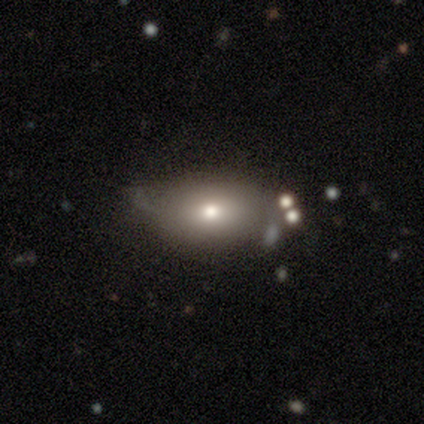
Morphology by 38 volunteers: A smooth galaxy with no disk features (68%) that is in between round and cigar-shaped (85%). Merging: none (62%).